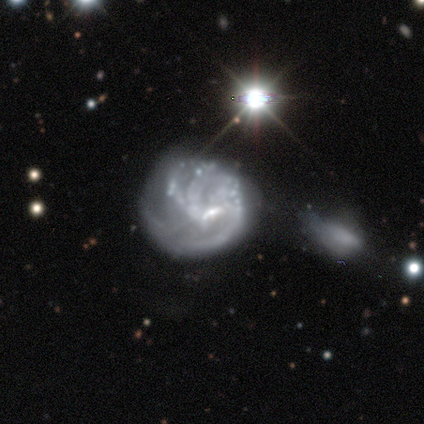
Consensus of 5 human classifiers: Volunteers were most divided on "spiral winding" (2-way tie): medium: 50%, loose: 50%, tight: 0%; "spiral arm count" (2-way tie): 3: 50%, more than 4: 50%, 1: 0%, 2: 0%, 4: 0%, can't tell: 0%; "merging" (3-way tie): none: 33%, minor disturbance: 33%, merger: 33%, major disturbance: 0%. More confident: edge-on disk — no (100%); bar — weak (100%); spiral arms — yes (67%); bulge size — small (67%); smooth or featured — featured or disk (60%).